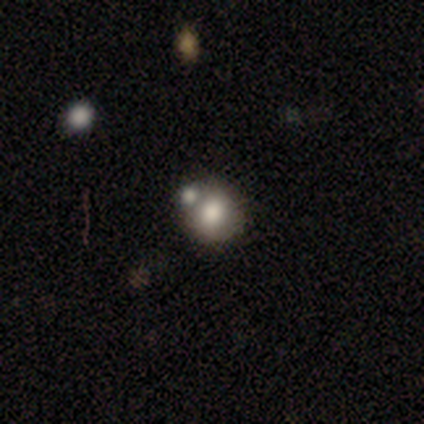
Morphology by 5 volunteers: Smooth or featured? 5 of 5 (100%) said smooth. How rounded? 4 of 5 (80%) said round. Merging? 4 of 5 (80%) said none.